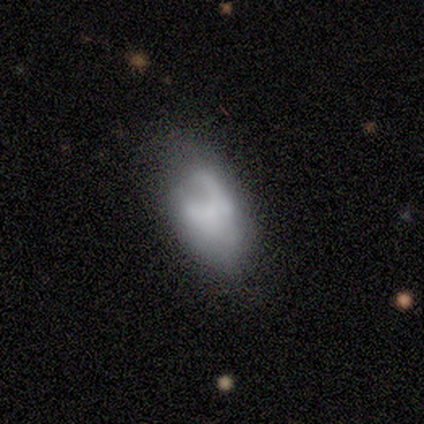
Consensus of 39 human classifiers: A smooth galaxy with no disk features (44%, tied with featured or disk) that is in between round and cigar-shaped (100%). Merging: none (41%).